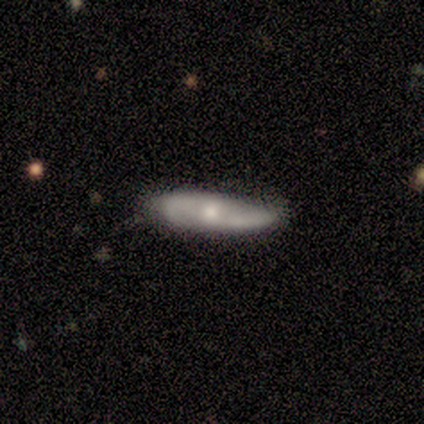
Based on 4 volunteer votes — This appears to be a smooth galaxy with no disk features (50%) that is cigar-shaped (100%). Merging: minor disturbance (67%).